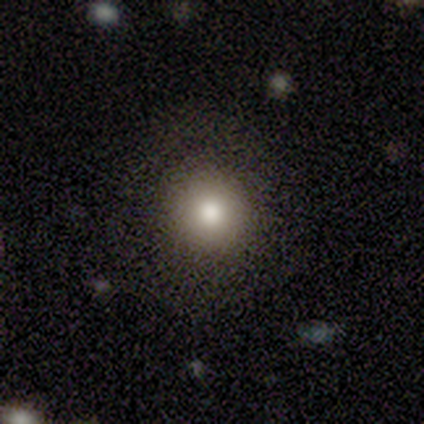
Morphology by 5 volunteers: Smooth or featured: smooth — 80% (star or artifact — 20%)
How rounded: round — 100%
Merging: none — 100%